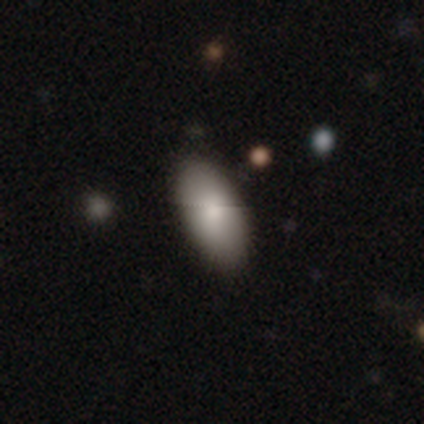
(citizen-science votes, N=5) smooth-or-featured: smooth: 100% | featured or disk: 0% | star or artifact: 0%
  how-rounded: in between: 100% | round: 0% | cigar-shaped: 0%
  merging: none: 80% | minor disturbance: 20% | major disturbance: 0% | merger: 0%